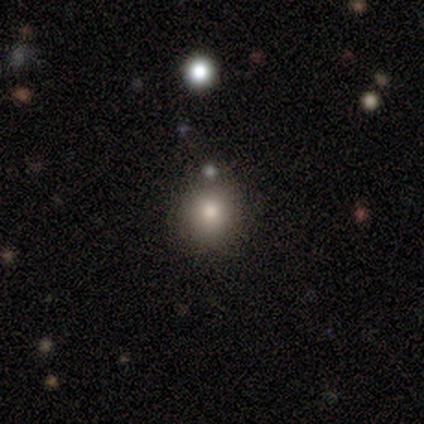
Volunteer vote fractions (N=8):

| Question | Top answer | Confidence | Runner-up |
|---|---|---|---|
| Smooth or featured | smooth | 100% | — |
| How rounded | round | 88% | in between (12%) |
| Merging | none | 75% | minor disturbance (25%) |